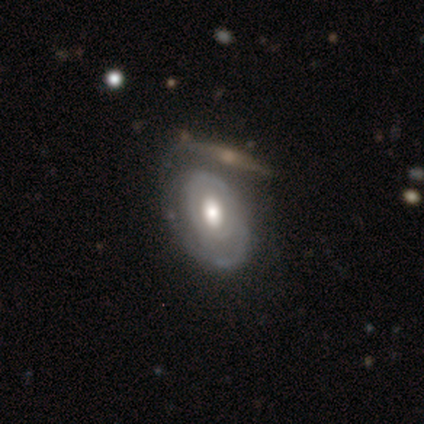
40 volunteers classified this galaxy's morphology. type=featured or disk (90%); edge-on=no (94%); bar=no (79%); spiral arms=yes (85%); winding=tight (62%); arm count=can't tell (41%); bulge=moderate (62%); merging=none (48%).